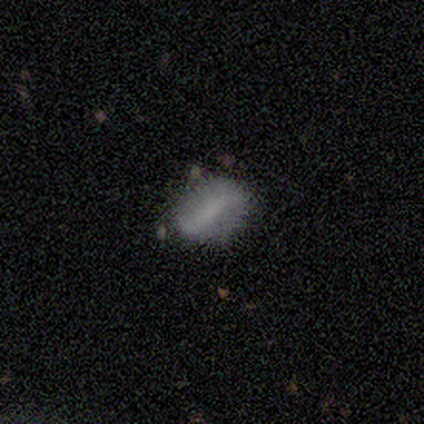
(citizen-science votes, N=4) Smooth or featured: smooth — 50% (tied with featured or disk — 50%)
How rounded: in between — 100%
Merging: none — 75% (minor disturbance — 25%)